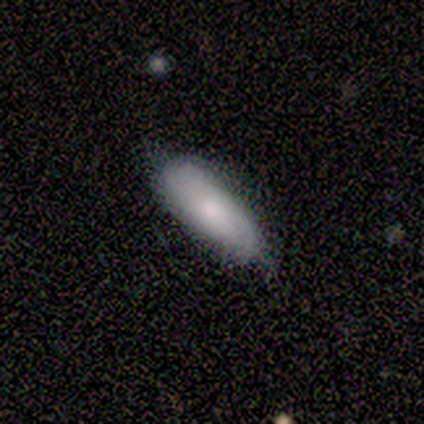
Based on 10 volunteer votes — Morphology: type=smooth (60%); roundness=in between (67%); merging=minor disturbance (67%).